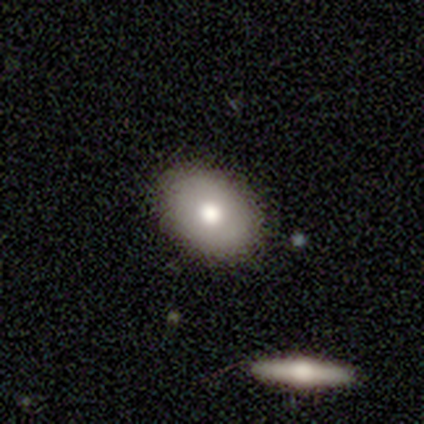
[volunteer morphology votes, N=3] A smooth galaxy with no disk features (67%) that is round (50%, tied with in between).

Vote fractions:
- Smooth or featured? smooth: 67% / featured or disk: 33% / star or artifact: 0%
- How rounded? round: 50% (tied) / in between: 50% (tied) / cigar-shaped: 0%
- Merging? none: 100% / minor disturbance: 0% / major disturbance: 0% / merger: 0%